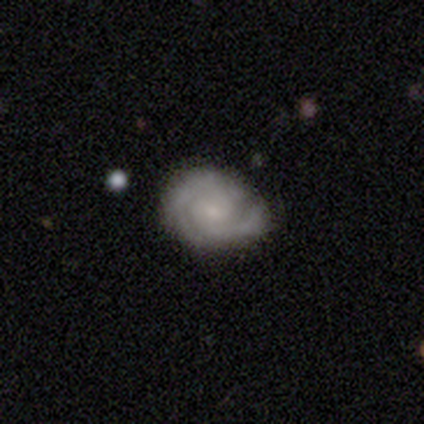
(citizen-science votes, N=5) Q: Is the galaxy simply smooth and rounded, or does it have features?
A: featured or disk — 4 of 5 (80%).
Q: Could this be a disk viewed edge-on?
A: no — 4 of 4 (100%).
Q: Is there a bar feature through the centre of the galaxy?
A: weak — 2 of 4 (50%).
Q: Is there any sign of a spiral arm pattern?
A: yes — 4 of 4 (100%).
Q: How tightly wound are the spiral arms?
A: tight — 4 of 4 (100%).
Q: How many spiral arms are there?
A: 2 — 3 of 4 (75%).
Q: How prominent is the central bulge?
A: small — 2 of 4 (50%).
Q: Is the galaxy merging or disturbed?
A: none — 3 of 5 (60%).